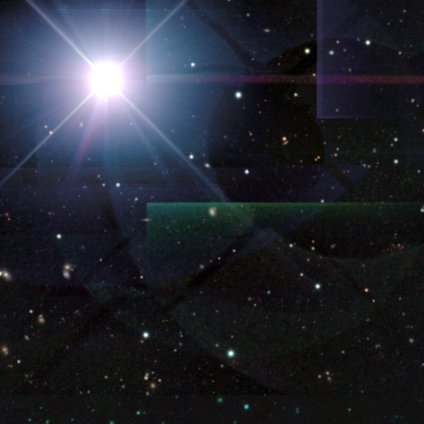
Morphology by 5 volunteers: Smooth or featured? star or artifact (100%)